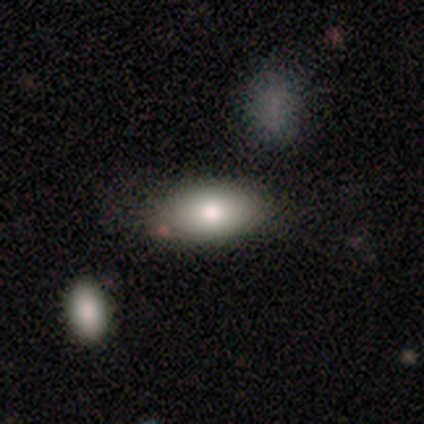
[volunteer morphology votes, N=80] Q: Smooth or featured?
A: smooth (88%); runner-up: featured or disk (10%)
Q: How rounded?
A: in between (94%); runner-up: round (4%)
Q: Merging?
A: none (46%); runner-up: merger (13%)